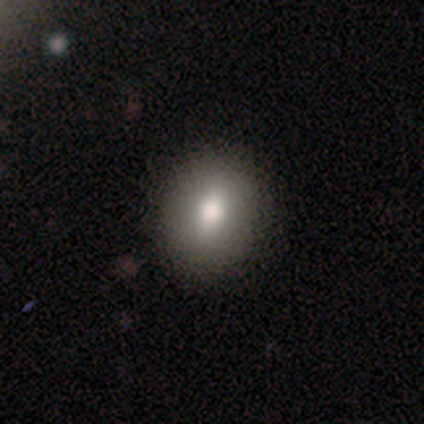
Overall: smooth (76%). How rounded: in between (62%; round 36%). Merging: none (90%).